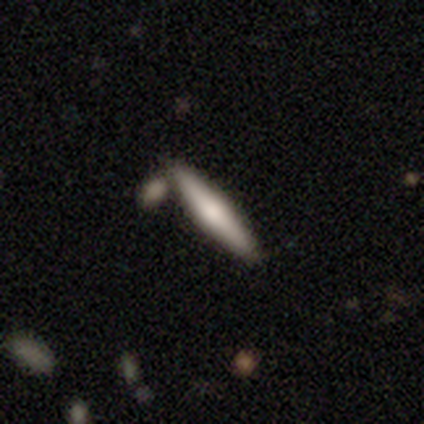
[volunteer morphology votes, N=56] This is possibly a smooth galaxy (50%, tied with featured or disk). How rounded: clearly cigar-shaped (89%). Merging: likely none (79%).